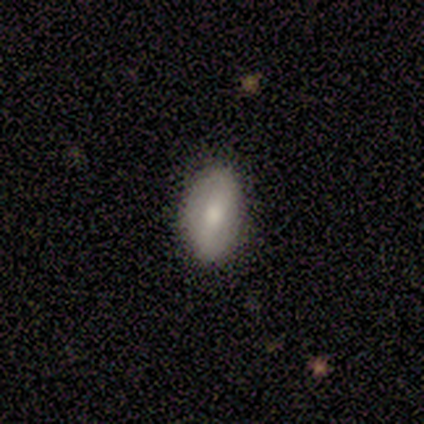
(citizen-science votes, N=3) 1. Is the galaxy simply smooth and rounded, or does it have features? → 100% smooth, 0% featured or disk, 0% star or artifact.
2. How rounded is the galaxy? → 100% in between, 0% round, 0% cigar-shaped.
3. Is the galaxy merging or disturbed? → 100% none, 0% minor disturbance, 0% major disturbance, 0% merger.